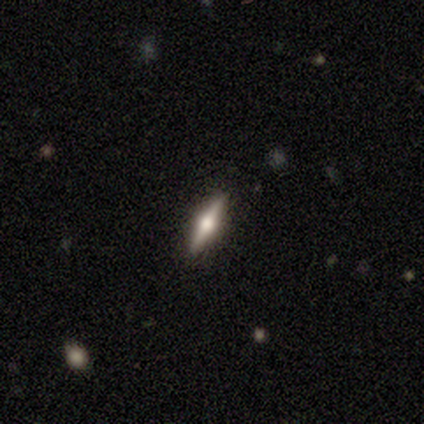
Smooth or featured?
  - featured or disk: 73% *
  - smooth: 18%
  - star or artifact: 9%
Edge-on disk?
  - yes: 100% *
  - no: 0%
Edge-on bulge?
  - rounded: 100% *
  - boxy: 0%
  - none: 0%
Merging?
  - none: 100% *
  - minor disturbance: 0%
  - major disturbance: 0%
  - merger: 0%